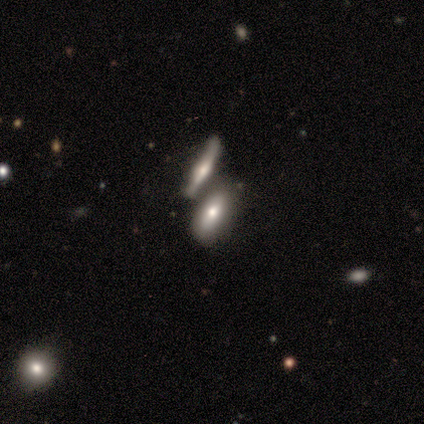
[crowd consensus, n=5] Q: Smooth or featured?
A: smooth (60%); runner-up: featured or disk (40%)
Q: How rounded?
A: in between (100%)
Q: Merging?
A: none (40%); tied with: merger (40%)